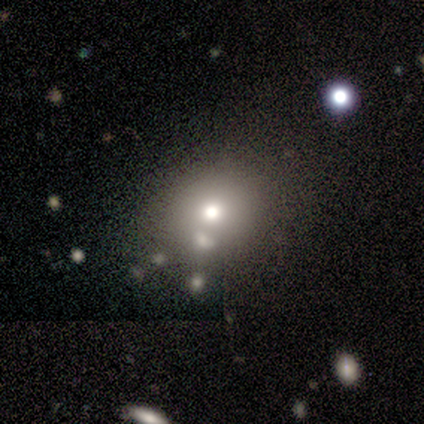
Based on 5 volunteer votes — smooth-or-featured: star or artifact: 60% | smooth: 20% | featured or disk: 20%